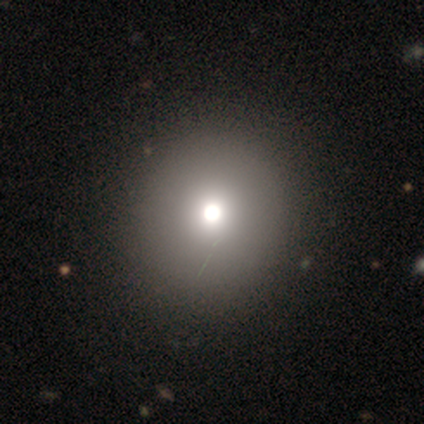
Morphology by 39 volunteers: Q: Smooth or featured?
A: smooth (67%); runner-up: star or artifact (18%)
Q: How rounded?
A: round (92%); runner-up: in between (8%)
Q: Merging?
A: none (50%); runner-up: merger (3%)